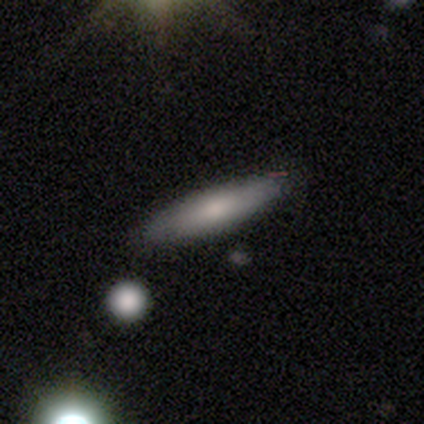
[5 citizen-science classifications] A smooth galaxy with no disk features (80%) that is cigar-shaped (75%).

Vote fractions:
- Smooth or featured? smooth: 80% / featured or disk: 20% / star or artifact: 0%
- How rounded? cigar-shaped: 75% / in between: 25% / round: 0%
- Merging? none: 60% / minor disturbance: 40% / major disturbance: 0% / merger: 0%